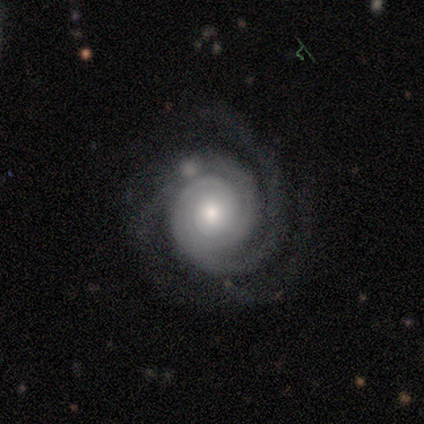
Morphology: type=featured or disk (100%); edge-on=no (100%); bar=no (100%); spiral arms=yes (100%); winding=tight (75%); arm count=2 (50%, tied with 3); bulge=moderate (50%, tied with small); merging=none (75%).